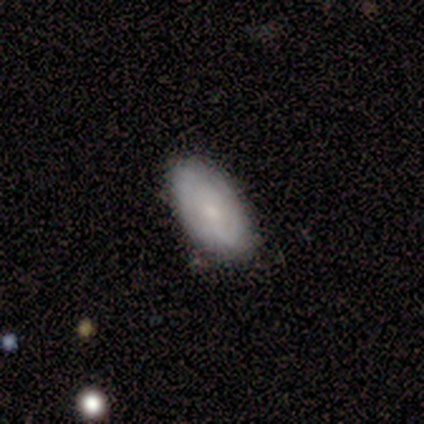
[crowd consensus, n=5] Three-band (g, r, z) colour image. It shows a smooth galaxy with no disk features (80%) that is in between round and cigar-shaped (100%). Merging: none (100%).